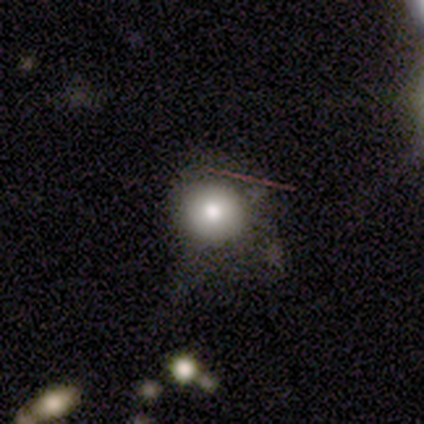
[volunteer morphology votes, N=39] smooth_or_featured: smooth (p=0.67) [alt: star or artifact p=0.23]
how_rounded: round (p=1.00)
merging: none (p=0.53) [alt: major disturbance p=0.27]